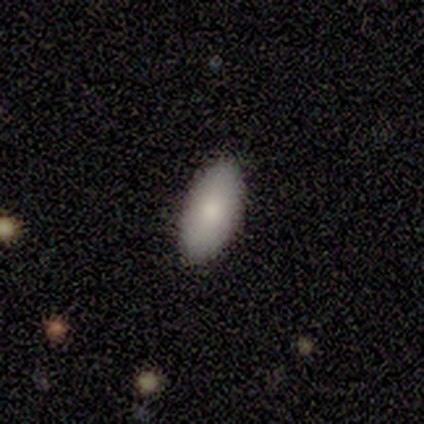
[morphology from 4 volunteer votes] Volunteers were most divided on "smooth or featured": smooth: 75%, featured or disk: 25%, star or artifact: 0%. More confident: how rounded — in between (100%); merging — none (100%).